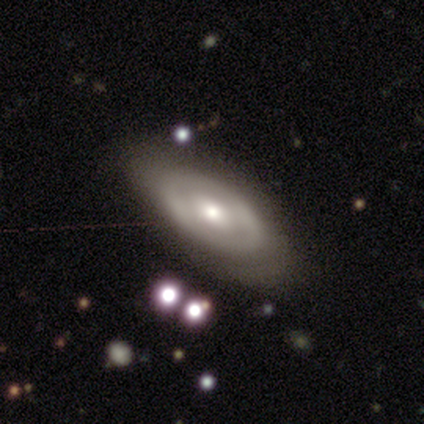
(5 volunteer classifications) Volunteers were most divided on "smooth or featured": smooth: 60%, featured or disk: 40%, star or artifact: 0%. More confident: merging — none (100%); how rounded — in between (67%).